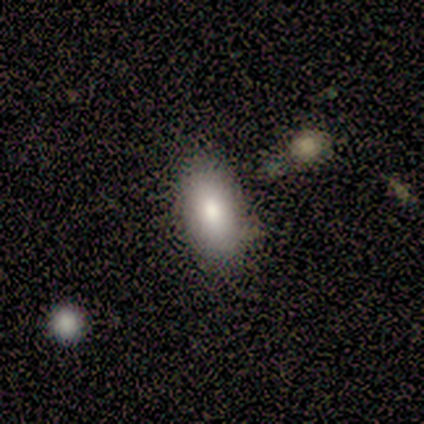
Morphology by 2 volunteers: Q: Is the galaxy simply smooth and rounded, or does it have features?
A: smooth — 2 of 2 (100%).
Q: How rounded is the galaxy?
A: in between — 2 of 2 (100%).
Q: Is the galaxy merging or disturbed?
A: none — 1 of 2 (50%, tied with merger).